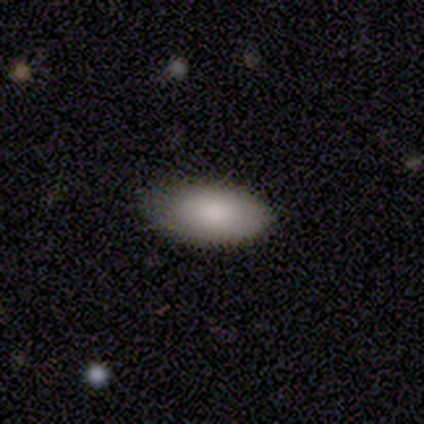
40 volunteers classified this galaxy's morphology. A smooth galaxy with no disk features (85%) that is in between round and cigar-shaped (97%).

Vote fractions:
- Smooth or featured? smooth: 85% / featured or disk: 15% / star or artifact: 0%
- How rounded? in between: 97% / cigar-shaped: 3% / round: 0%
- Merging? none: 82% / minor disturbance: 18% / major disturbance: 0% / merger: 0%